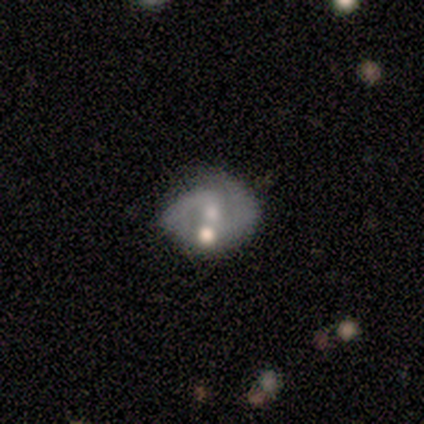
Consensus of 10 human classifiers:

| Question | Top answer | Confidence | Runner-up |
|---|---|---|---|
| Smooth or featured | featured or disk | 90% | smooth (10%) |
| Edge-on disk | no | 100% | — |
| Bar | weak | 56% | no (44%) |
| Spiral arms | yes | 100% | — |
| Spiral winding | medium | 44% | tied: loose (44%) |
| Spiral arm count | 2 | 67% | 1 (22%) |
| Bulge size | small | 56% | moderate (22%) |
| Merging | none | 60% | merger (30%) |